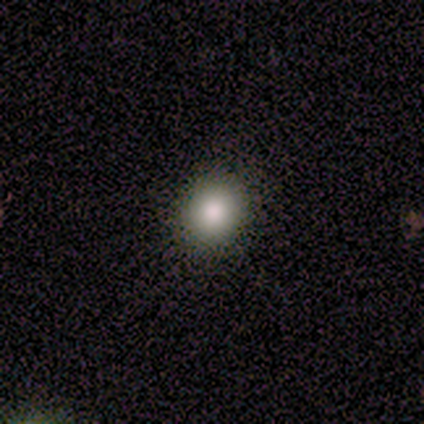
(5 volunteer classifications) smooth-or-featured: smooth: 100% | featured or disk: 0% | star or artifact: 0%
  how-rounded: round: 60% | in between: 40% | cigar-shaped: 0%
  merging: none: 80% | minor disturbance: 20% | major disturbance: 0% | merger: 0%